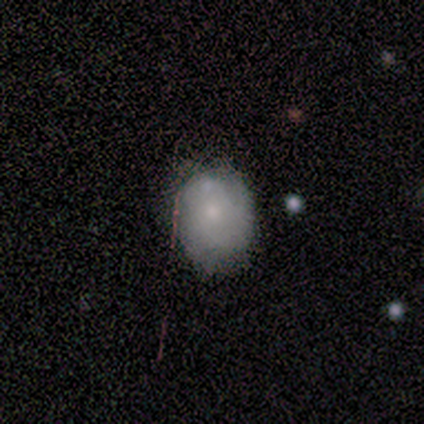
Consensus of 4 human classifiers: Smooth or featured? smooth (50%)
How rounded? round (50%, tied with in between)
Merging? none (100%)